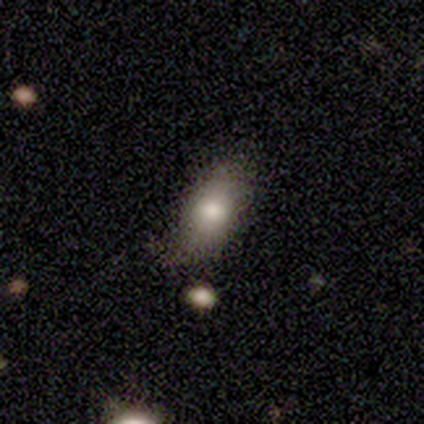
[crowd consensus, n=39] Overall: smooth (85%). How rounded: in between (91%). Merging: none (59%; minor disturbance 38%).